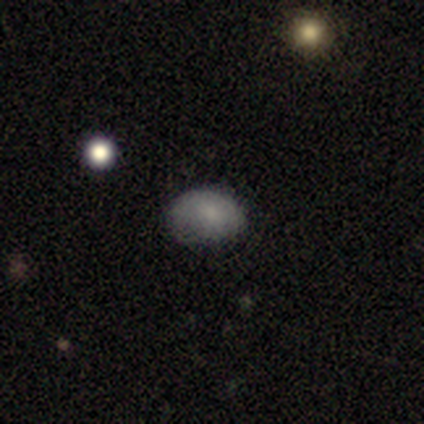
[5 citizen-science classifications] A smooth galaxy with no disk features (80%) that is in between round and cigar-shaped (75%).

Vote fractions:
- Smooth or featured? smooth: 80% / featured or disk: 20% / star or artifact: 0%
- How rounded? in between: 75% / round: 25% / cigar-shaped: 0%
- Merging? none: 60% / minor disturbance: 40% / major disturbance: 0% / merger: 0%